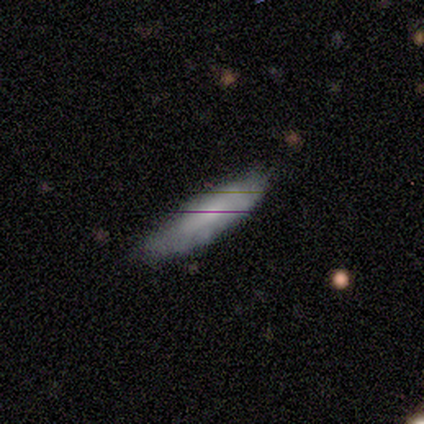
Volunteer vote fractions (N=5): Smooth or featured?
  - smooth: 60% *
  - featured or disk: 40%
  - star or artifact: 0%
How rounded?
  - cigar-shaped: 67% *
  - in between: 33%
  - round: 0%
Merging?
  - minor disturbance: 60% *
  - none: 20%
  - major disturbance: 20%
  - merger: 0%